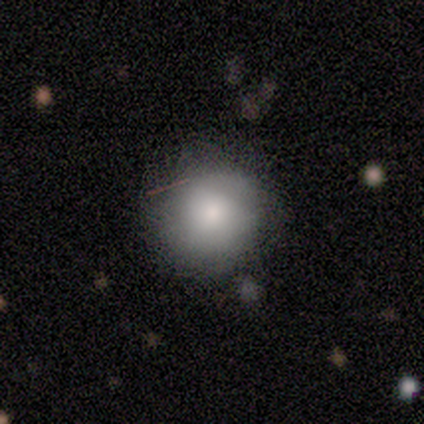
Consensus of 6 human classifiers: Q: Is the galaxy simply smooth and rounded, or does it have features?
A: smooth — 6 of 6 (100%).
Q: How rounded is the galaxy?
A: round — 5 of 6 (83%).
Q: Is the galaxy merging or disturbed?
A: none — 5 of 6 (83%).